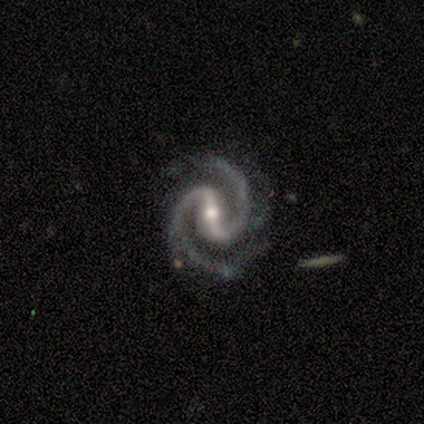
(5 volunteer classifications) Volunteers were most divided on "bar": strong: 75%, no: 25%, weak: 0%. More confident: smooth or featured — featured or disk (100%); spiral arms — yes (100%); spiral arm count — 2 (100%); edge-on disk — no (80%); merging — none (80%); spiral winding — medium (75%); bulge size — moderate (75%).